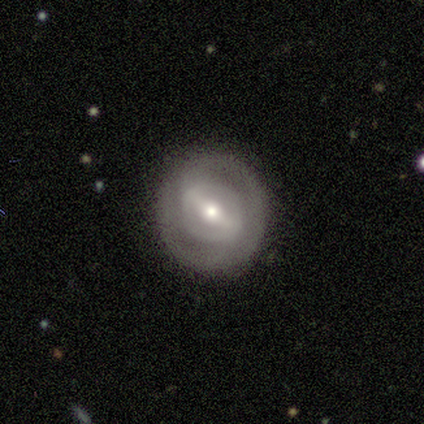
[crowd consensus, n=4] Smooth or featured? featured or disk (100%)
Edge-on disk? no (100%)
Bar? strong (75%)
Spiral arms? no (75%)
Bulge size? moderate (50%, tied with small)
Merging? none (75%)